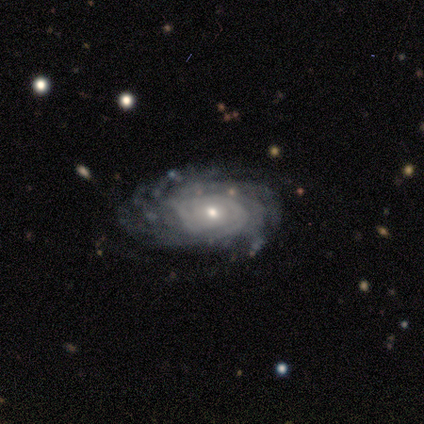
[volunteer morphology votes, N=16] A featured or disk galaxy (94%) with no bar (100%), tight (69%) spiral arms (93%) and a small central bulge (100%).

Vote fractions:
- Smooth or featured? featured or disk: 94% / smooth: 6% / star or artifact: 0%
- Edge-on disk? no: 93% / yes: 7%
- Bar? no: 100% / strong: 0% / weak: 0%
- Spiral arms? yes: 93% / no: 7%
- Spiral winding? tight: 69% / medium: 23% / loose: 8%
- Spiral arm count? can't tell: 54% / more than 4: 31% / 3: 15% / 1: 0% / 2: 0% / 4: 0%
- Bulge size? small: 100% / dominant: 0% / large: 0% / moderate: 0% / none: 0%
- Merging? none: 94% / minor disturbance: 6% / major disturbance: 0% / merger: 0%